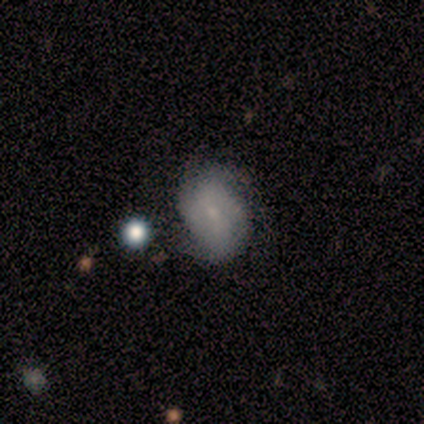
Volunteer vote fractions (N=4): Smooth or featured? 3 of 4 (75%) said smooth. How rounded? 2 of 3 (67%) said in between. Merging? 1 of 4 (25%, tied with minor disturbance, major disturbance and merger) said none.